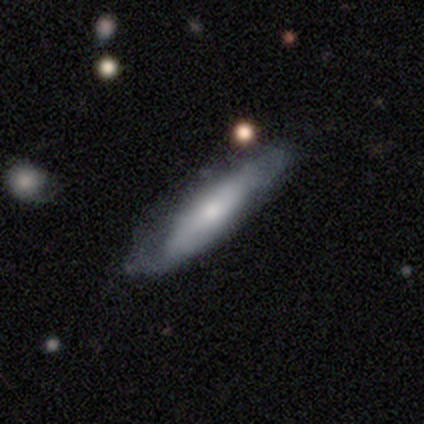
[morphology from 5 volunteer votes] Smooth or featured?
  - featured or disk: 80% *
  - smooth: 20%
  - star or artifact: 0%
Edge-on disk?
  - yes: 100% *
  - no: 0%
Edge-on bulge?
  - rounded: 100% *
  - boxy: 0%
  - none: 0%
Merging?
  - none: 60% *
  - minor disturbance: 20%
  - merger: 20%
  - major disturbance: 0%